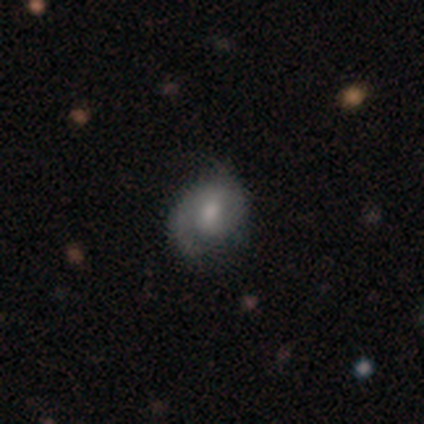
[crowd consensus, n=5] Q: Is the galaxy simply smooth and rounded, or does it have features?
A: featured or disk — 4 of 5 (80%).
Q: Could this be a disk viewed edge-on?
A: no — 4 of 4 (100%).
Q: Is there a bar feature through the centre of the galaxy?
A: weak — 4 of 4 (100%).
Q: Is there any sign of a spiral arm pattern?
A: yes — 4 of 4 (100%).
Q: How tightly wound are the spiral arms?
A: tight — 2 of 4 (50%, tied with medium).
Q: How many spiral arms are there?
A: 2 — 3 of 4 (75%).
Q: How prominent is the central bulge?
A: moderate — 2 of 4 (50%).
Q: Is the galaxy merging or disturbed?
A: none — 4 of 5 (80%).